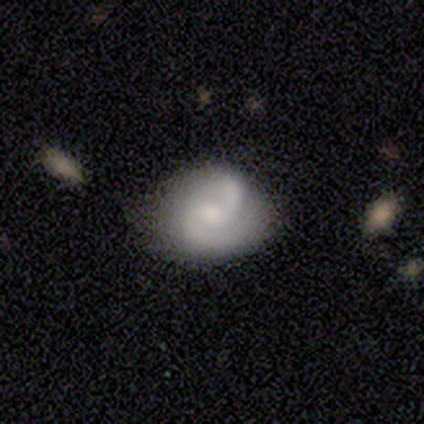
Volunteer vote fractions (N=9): A featured or disk galaxy (67%) with no bar (67%), 2 (100%) medium (67%) spiral arms (100%) and a moderate central bulge (67%).

Vote fractions:
- Smooth or featured? featured or disk: 67% / smooth: 22% / star or artifact: 11%
- Edge-on disk? no: 100% / yes: 0%
- Bar? no: 67% / weak: 33% / strong: 0%
- Spiral arms? yes: 100% / no: 0%
- Spiral winding? medium: 67% / loose: 33% / tight: 0%
- Spiral arm count? 2: 100% / 1: 0% / 3: 0% / 4: 0% / more than 4: 0% / can't tell: 0%
- Bulge size? moderate: 67% / large: 17% / small: 17% / dominant: 0% / none: 0%
- Merging? none: 88% / merger: 12% / minor disturbance: 0% / major disturbance: 0%